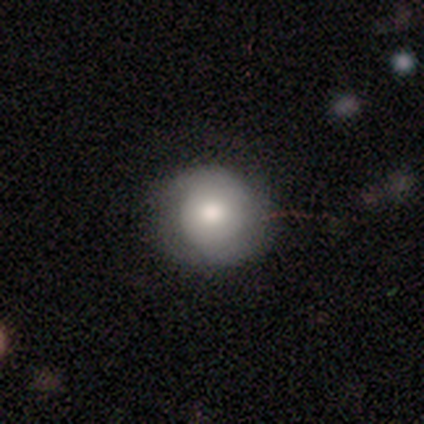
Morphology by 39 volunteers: Smooth or featured? 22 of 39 (56%) said smooth. How rounded? 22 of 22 (100%) said round. Merging? 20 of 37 (54%) said none.